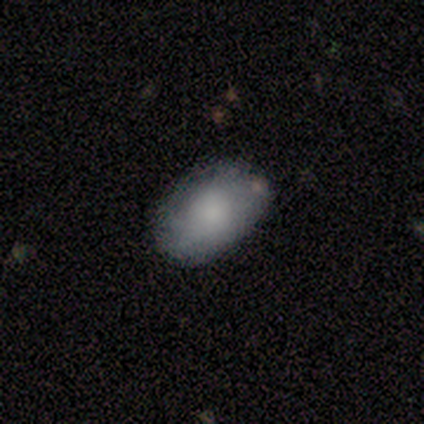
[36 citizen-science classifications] This appears to be a smooth galaxy with no disk features (64%) that is in between round and cigar-shaped (100%). Merging: none (81%).